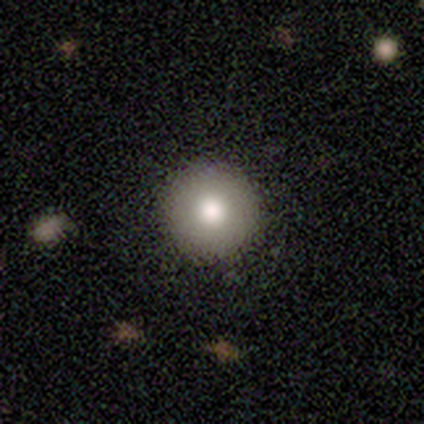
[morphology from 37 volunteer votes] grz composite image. It shows a smooth galaxy with no disk features (76%) that is round (100%). Merging: none (97%).